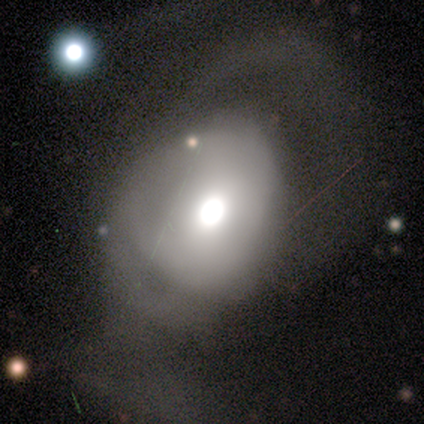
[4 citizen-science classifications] A smooth galaxy with no disk features (50%) that is round (50%, tied with in between). Merging: major disturbance (100%).